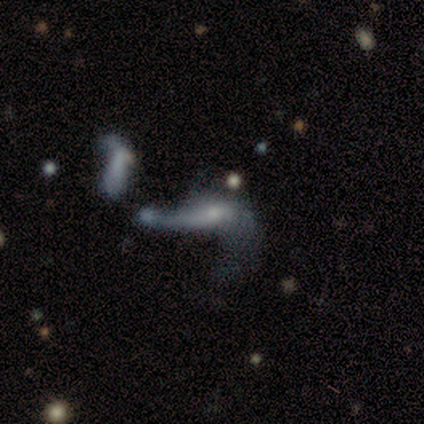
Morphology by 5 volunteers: Smooth or featured?
  - featured or disk: 40% * (tied)
  - star or artifact: 40% * (tied)
  - smooth: 20%
Edge-on disk?
  - no: 100% *
  - yes: 0%
Bar?
  - no: 100% *
  - strong: 0%
  - weak: 0%
Spiral arms?
  - yes: 50% * (tied)
  - no: 50% * (tied)
Spiral winding?
  - loose: 100% *
  - tight: 0%
  - medium: 0%
Spiral arm count?
  - 1: 100% *
  - 2: 0%
  - 3: 0%
  - 4: 0%
  - more than 4: 0%
  - can't tell: 0%
Bulge size?
  - small: 100% *
  - dominant: 0%
  - large: 0%
  - moderate: 0%
  - none: 0%
Merging?
  - merger: 100% *
  - none: 0%
  - minor disturbance: 0%
  - major disturbance: 0%